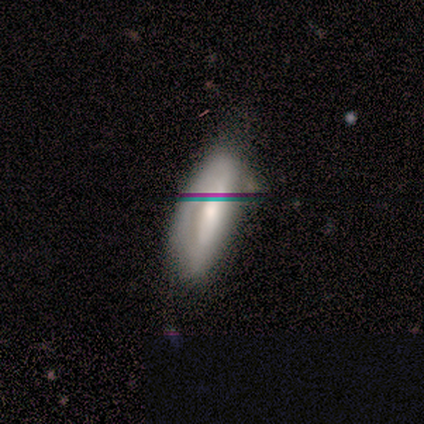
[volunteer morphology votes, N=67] smooth_or_featured: featured or disk (p=0.49) [alt: smooth p=0.42]
disk_edge_on: no (p=0.76) [alt: yes p=0.24]
bar: no (p=0.52) [alt: strong p=0.24]
has_spiral_arms: no (p=0.68) [alt: yes p=0.32]
bulge_size: moderate (p=0.48) [alt: large p=0.40]
merging: none (p=0.48) [alt: minor disturbance p=0.41]